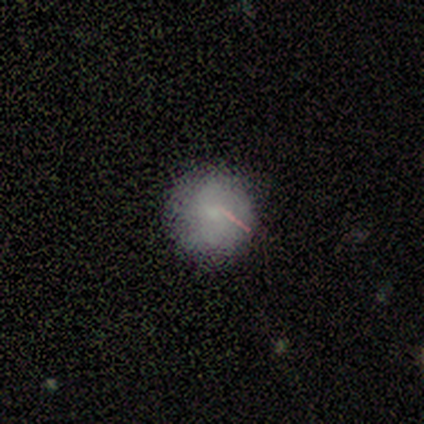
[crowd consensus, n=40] Smooth or featured? 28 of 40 (70%) said smooth. How rounded? 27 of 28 (96%) said round. Merging? 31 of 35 (89%) said none.